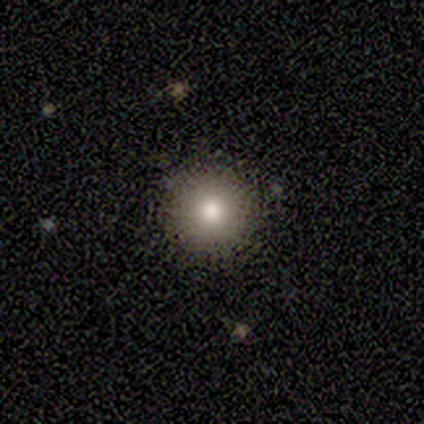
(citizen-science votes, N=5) smooth-or-featured: smooth: 80% | star or artifact: 20% | featured or disk: 0%
  how-rounded: round: 100% | in between: 0% | cigar-shaped: 0%
  merging: none: 75% | minor disturbance: 25% | major disturbance: 0% | merger: 0%